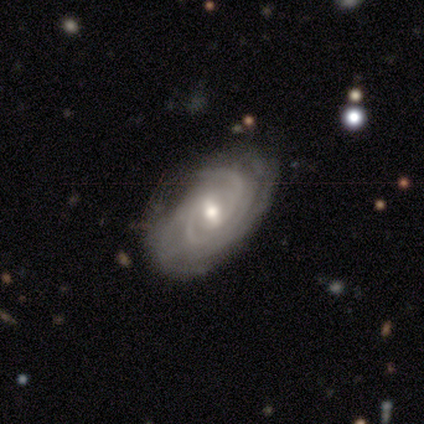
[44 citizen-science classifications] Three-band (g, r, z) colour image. It shows a featured or disk galaxy (84%) with a weak bar (48%), 3 (42%) tight (88%) spiral arms (100%) and a moderate central bulge (61%). Merging: none (81%).